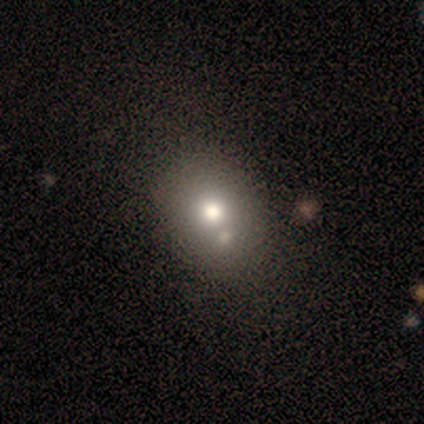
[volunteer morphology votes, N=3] This is clearly a smooth galaxy (100%). How rounded: likely in between (67%). Merging: clearly none (100%).